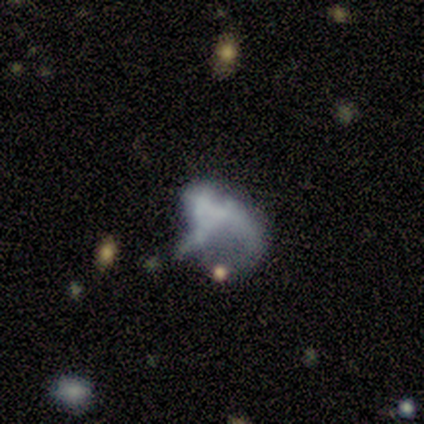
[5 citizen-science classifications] A smooth galaxy with no disk features (40%, tied with star or artifact) that is in between round and cigar-shaped (100%).

Vote fractions:
- Smooth or featured? smooth: 40% (tied) / star or artifact: 40% (tied) / featured or disk: 20%
- How rounded? in between: 100% / round: 0% / cigar-shaped: 0%
- Merging? minor disturbance: 67% / none: 33% / major disturbance: 0% / merger: 0%